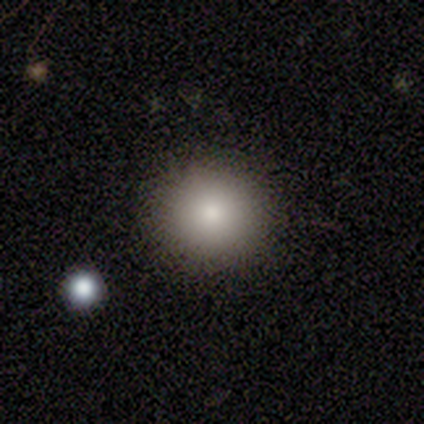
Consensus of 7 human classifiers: Q: Smooth or featured?
A: smooth (86%); runner-up: featured or disk (14%)
Q: How rounded?
A: round (100%)
Q: Merging?
A: none (100%)